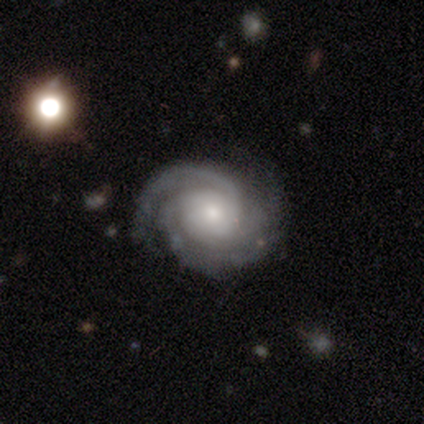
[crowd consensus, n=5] Smooth or featured?
  - featured or disk: 100% *
  - smooth: 0%
  - star or artifact: 0%
Edge-on disk?
  - no: 80% *
  - yes: 20%
Bar?
  - weak: 75% *
  - no: 25%
  - strong: 0%
Spiral arms?
  - yes: 100% *
  - no: 0%
Spiral winding?
  - tight: 75% *
  - medium: 25%
  - loose: 0%
Spiral arm count?
  - 3: 50% *
  - 1: 25%
  - 2: 25%
  - 4: 0%
  - more than 4: 0%
  - can't tell: 0%
Bulge size?
  - moderate: 50% * (tied)
  - small: 50% * (tied)
  - dominant: 0%
  - large: 0%
  - none: 0%
Merging?
  - none: 80% *
  - major disturbance: 20%
  - minor disturbance: 0%
  - merger: 0%